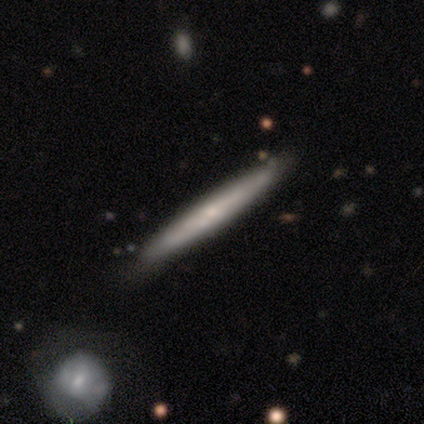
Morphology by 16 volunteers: A smooth galaxy with no disk features (50%, tied with featured or disk) that is cigar-shaped (100%). Merging: none (81%).